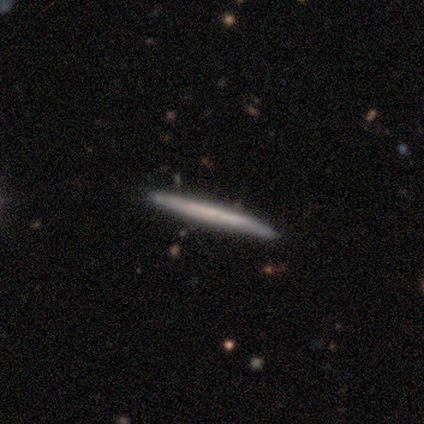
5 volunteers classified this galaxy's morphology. Smooth or featured: featured or disk — 60% (smooth — 40%)
Edge-on disk: yes — 100%
Edge-on bulge: none — 100%
Merging: none — 80% (minor disturbance — 20%)